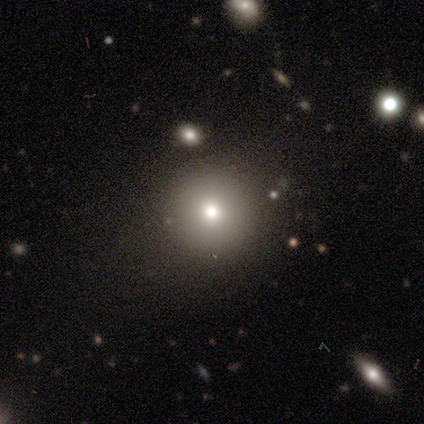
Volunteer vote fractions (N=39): Overall: smooth (82%). How rounded: round (97%). Merging: none (83%).